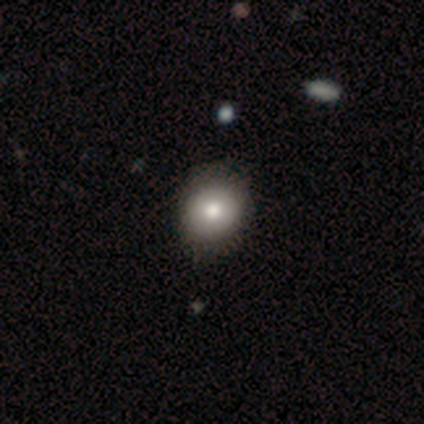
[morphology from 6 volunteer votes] Smooth or featured?
  - smooth: 83% *
  - star or artifact: 17%
  - featured or disk: 0%
How rounded?
  - round: 100% *
  - in between: 0%
  - cigar-shaped: 0%
Merging?
  - none: 100% *
  - minor disturbance: 0%
  - major disturbance: 0%
  - merger: 0%